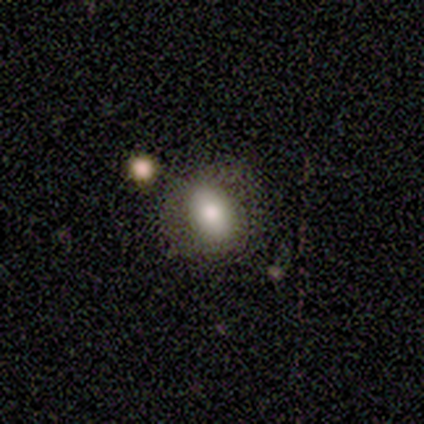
Morphology: type=smooth (80%); roundness=in between (100%); merging=none (60%).